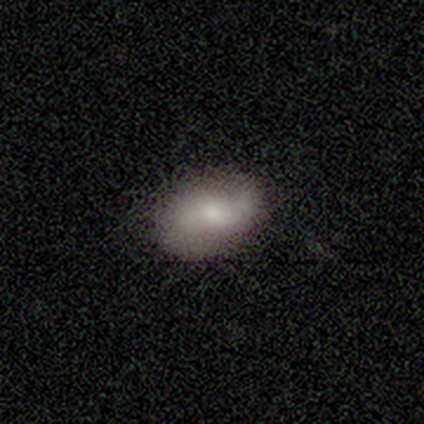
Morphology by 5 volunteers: smooth_or_featured: smooth (p=0.60) [alt: featured or disk p=0.40]
how_rounded: in between (p=1.00)
merging: none (p=0.80) [alt: major disturbance p=0.20]